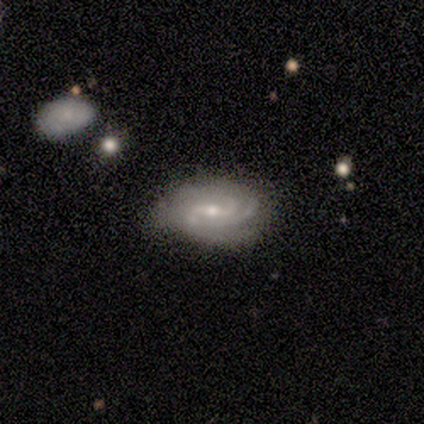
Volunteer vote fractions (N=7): Smooth or featured? featured or disk (57%)
Edge-on disk? no (100%)
Bar? weak (75%)
Spiral arms? yes (100%)
Spiral winding? medium (50%)
Spiral arm count? 2 (75%)
Bulge size? moderate (75%)
Merging? none (50%, tied with minor disturbance)